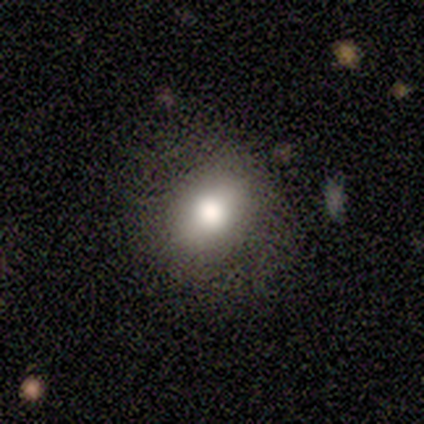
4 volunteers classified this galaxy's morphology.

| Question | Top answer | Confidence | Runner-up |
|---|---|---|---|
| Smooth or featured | star or artifact | 50% | smooth (25%) |